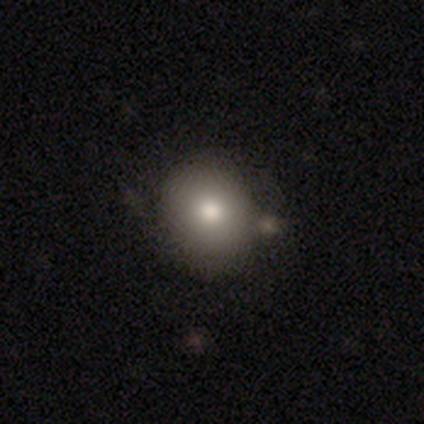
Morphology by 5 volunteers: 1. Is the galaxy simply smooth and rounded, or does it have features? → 100% smooth, 0% featured or disk, 0% star or artifact.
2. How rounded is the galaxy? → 100% round, 0% in between, 0% cigar-shaped.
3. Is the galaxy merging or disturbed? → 60% none, 40% minor disturbance, 0% major disturbance, 0% merger.